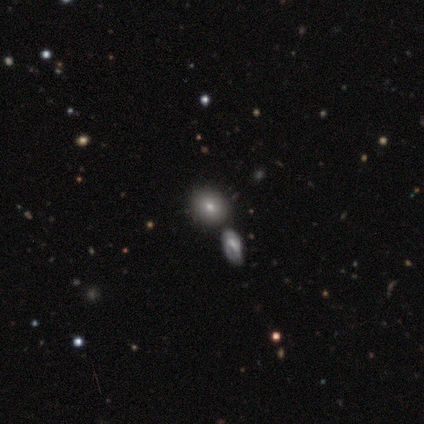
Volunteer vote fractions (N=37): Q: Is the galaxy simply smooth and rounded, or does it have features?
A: smooth — 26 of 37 (70%).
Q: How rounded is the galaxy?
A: round — 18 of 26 (69%).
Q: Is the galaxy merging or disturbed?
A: merger — 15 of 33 (45%).